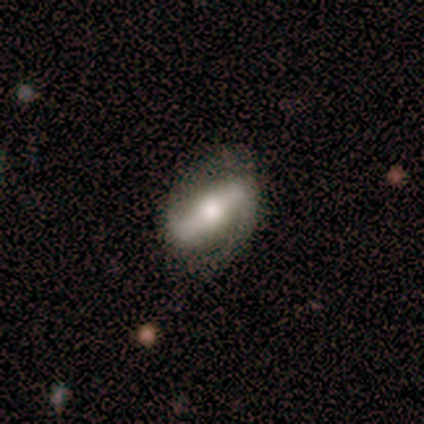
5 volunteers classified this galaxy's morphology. Volunteers were most divided on "spiral winding": tight: 50%, medium: 25%, loose: 25%. More confident: smooth or featured — featured or disk (100%); bar — strong (100%); spiral arms — yes (100%); spiral arm count — 2 (100%); bulge size — moderate (100%); edge-on disk — no (80%); merging — none (80%).